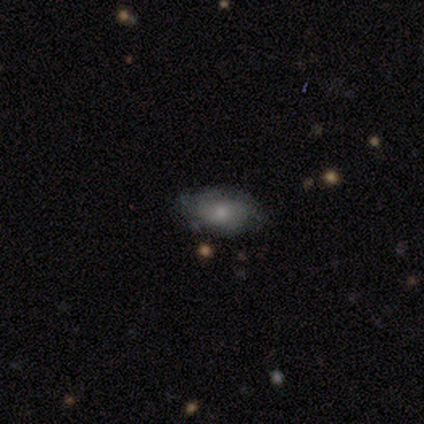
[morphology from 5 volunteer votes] This appears to be a smooth galaxy with no disk features (60%) that is in between round and cigar-shaped (100%). Merging: none (75%).